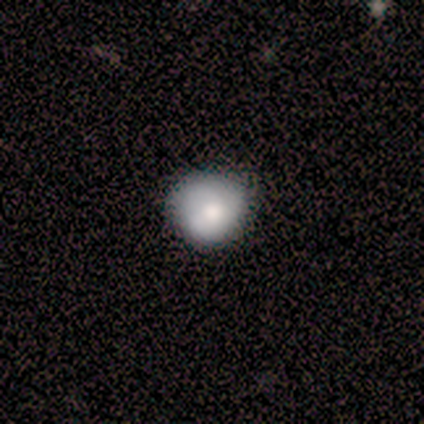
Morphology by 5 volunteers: Q: Smooth or featured?
A: smooth (60%); runner-up: featured or disk (40%)
Q: How rounded?
A: round (67%); runner-up: in between (33%)
Q: Merging?
A: none (80%); runner-up: minor disturbance (20%)